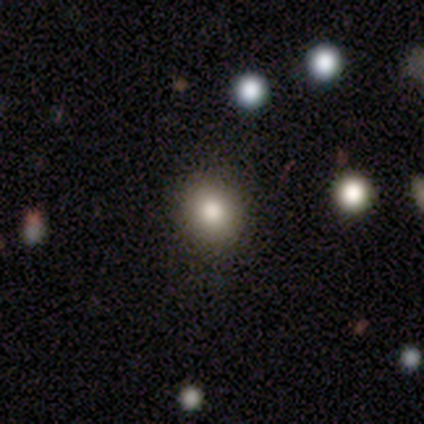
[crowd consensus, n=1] Morphology: type=smooth (100%); roundness=round (100%); merging=none (100%).